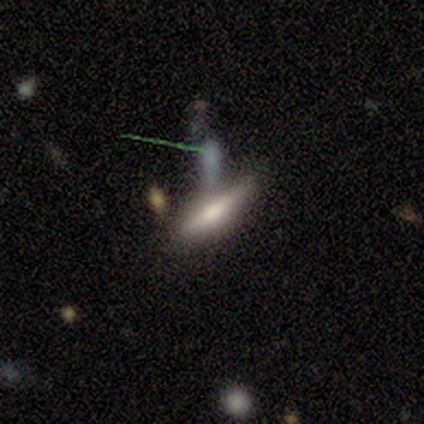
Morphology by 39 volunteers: This appears to be a featured or disk galaxy (44%) viewed edge-on (94%) with a rounded central bulge (94%). Merging: none (60%).